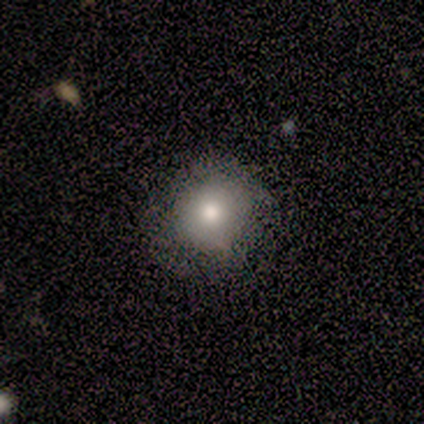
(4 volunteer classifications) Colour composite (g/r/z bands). It shows a smooth galaxy with no disk features (75%) that is round (100%). Merging: none (67%).